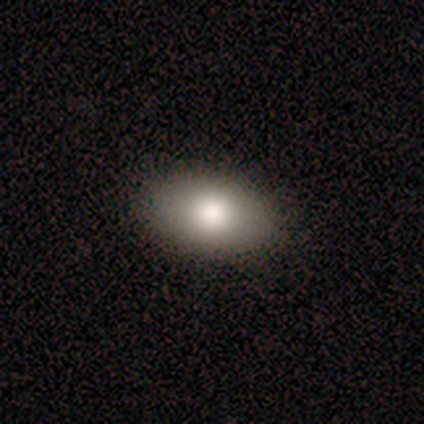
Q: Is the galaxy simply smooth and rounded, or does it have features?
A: smooth — 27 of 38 (71%).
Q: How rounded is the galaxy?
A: in between — 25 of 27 (93%).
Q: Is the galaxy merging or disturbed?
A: none — 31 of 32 (97%).